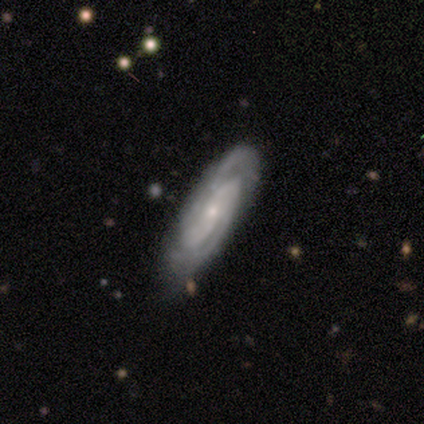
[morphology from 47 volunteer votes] A featured or disk galaxy (74%) with no bar (50%), 2 (50%) tight (57%) spiral arms (100%) and a small central bulge (83%).

Vote fractions:
- Smooth or featured? featured or disk: 74% / smooth: 15% / star or artifact: 11%
- Edge-on disk? no: 86% / yes: 14%
- Bar? no: 50% / weak: 30% / strong: 20%
- Spiral arms? yes: 100% / no: 0%
- Spiral winding? tight: 57% / medium: 30% / loose: 13%
- Spiral arm count? 2: 50% / can't tell: 37% / 3: 10% / 1: 3% / 4: 0% / more than 4: 0%
- Bulge size? small: 83% / moderate: 10% / dominant: 3% / none: 3% / large: 0%
- Merging? none: 69% / minor disturbance: 21% / major disturbance: 7% / merger: 2%